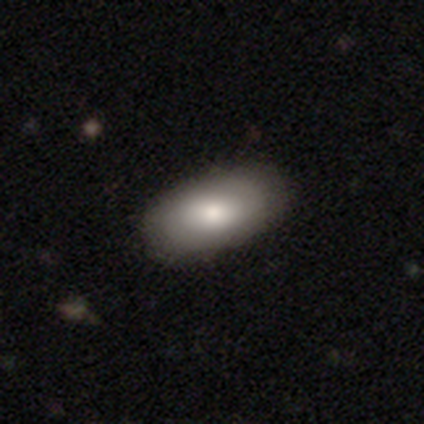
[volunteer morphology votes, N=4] This appears to be a smooth galaxy with no disk features (50%, tied with featured or disk) that is in between round and cigar-shaped (100%). Merging: none (75%).